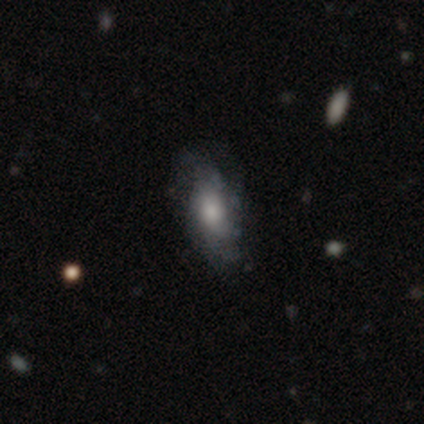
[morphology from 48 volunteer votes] Q: Smooth or featured?
A: smooth (48%); runner-up: featured or disk (46%)
Q: How rounded?
A: in between (83%); runner-up: cigar-shaped (13%)
Q: Merging?
A: none (56%); runner-up: minor disturbance (24%)